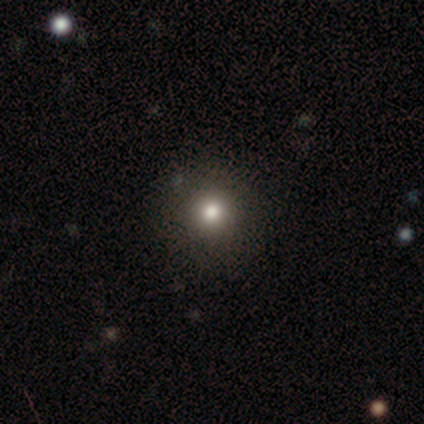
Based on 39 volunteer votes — smooth 59%, star or artifact 36%, featured or disk 5%. Down the decision tree: how rounded — round (100%); merging — none (100%).